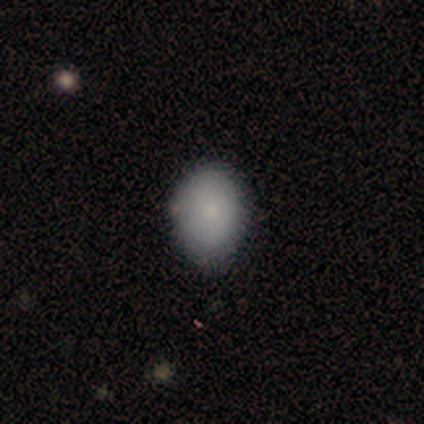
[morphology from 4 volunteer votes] A smooth galaxy with no disk features (100%) that is round (50%, tied with in between).

Vote fractions:
- Smooth or featured? smooth: 100% / featured or disk: 0% / star or artifact: 0%
- How rounded? round: 50% (tied) / in between: 50% (tied) / cigar-shaped: 0%
- Merging? none: 50% (tied) / minor disturbance: 50% (tied) / major disturbance: 0% / merger: 0%